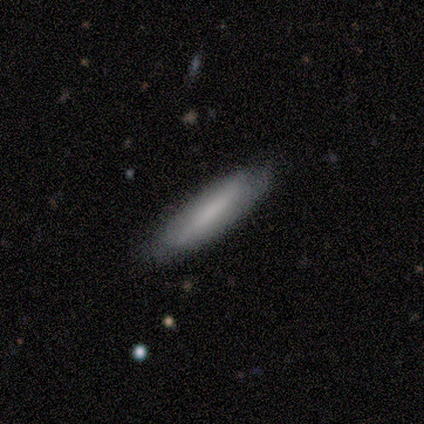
Smooth or featured?
  - featured or disk: 60% *
  - smooth: 40%
  - star or artifact: 0%
Edge-on disk?
  - yes: 67% *
  - no: 33%
Edge-on bulge?
  - none: 100% *
  - boxy: 0%
  - rounded: 0%
Merging?
  - none: 100% *
  - minor disturbance: 0%
  - major disturbance: 0%
  - merger: 0%